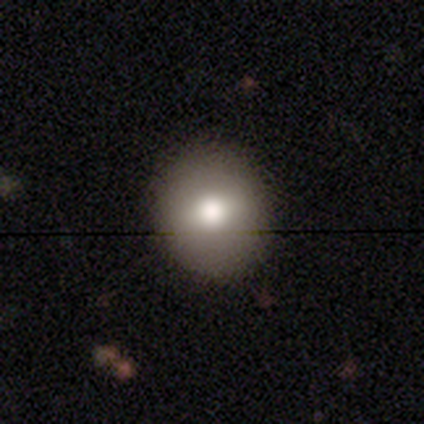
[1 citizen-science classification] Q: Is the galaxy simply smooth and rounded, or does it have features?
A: smooth — 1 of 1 (100%).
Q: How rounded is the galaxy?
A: round — 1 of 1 (100%).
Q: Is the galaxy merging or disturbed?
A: none — 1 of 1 (100%).